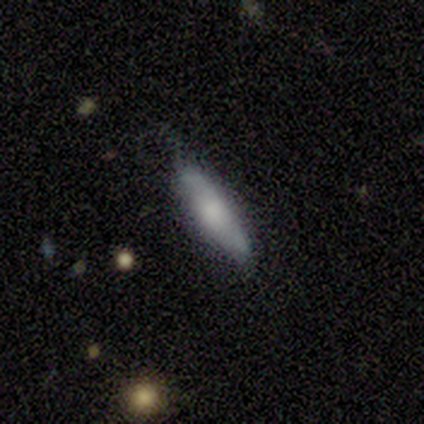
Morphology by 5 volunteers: Q: Smooth or featured?
A: smooth (60%); runner-up: featured or disk (40%)
Q: How rounded?
A: cigar-shaped (67%); runner-up: in between (33%)
Q: Merging?
A: minor disturbance (60%); runner-up: none (40%)